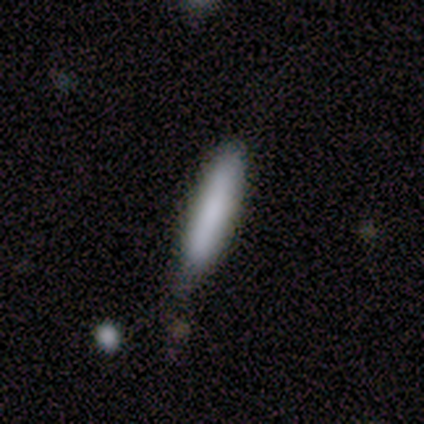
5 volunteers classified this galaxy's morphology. A smooth galaxy with no disk features (60%) that is cigar-shaped (67%). Merging: none (50%).